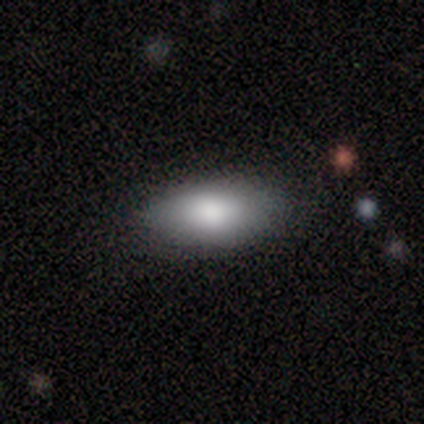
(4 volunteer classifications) A smooth galaxy with no disk features (100%) that is in between round and cigar-shaped (100%).

Vote fractions:
- Smooth or featured? smooth: 100% / featured or disk: 0% / star or artifact: 0%
- How rounded? in between: 100% / round: 0% / cigar-shaped: 0%
- Merging? none: 75% / minor disturbance: 25% / major disturbance: 0% / merger: 0%